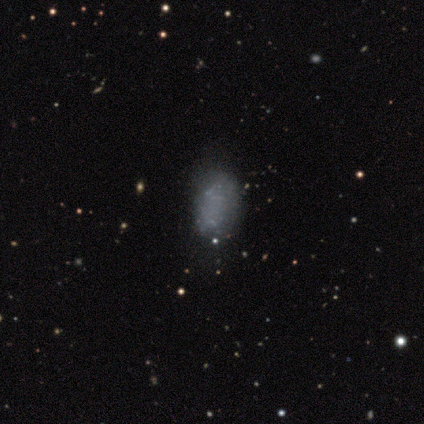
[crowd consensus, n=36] Q: Smooth or featured?
A: smooth (58%); runner-up: featured or disk (28%)
Q: How rounded?
A: in between (90%); runner-up: round (10%)
Q: Merging?
A: none (61%); runner-up: minor disturbance (29%)